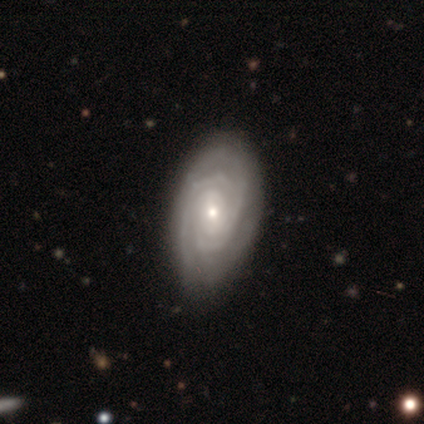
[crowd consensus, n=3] Smooth or featured?
  - featured or disk: 67% *
  - smooth: 33%
  - star or artifact: 0%
Edge-on disk?
  - no: 100% *
  - yes: 0%
Bar?
  - weak: 50% * (tied)
  - no: 50% * (tied)
  - strong: 0%
Spiral arms?
  - yes: 100% *
  - no: 0%
Spiral winding?
  - tight: 100% *
  - medium: 0%
  - loose: 0%
Spiral arm count?
  - 2: 50% * (tied)
  - can't tell: 50% * (tied)
  - 1: 0%
  - 3: 0%
  - 4: 0%
  - more than 4: 0%
Bulge size?
  - moderate: 50% * (tied)
  - small: 50% * (tied)
  - dominant: 0%
  - large: 0%
  - none: 0%
Merging?
  - none: 100% *
  - minor disturbance: 0%
  - major disturbance: 0%
  - merger: 0%